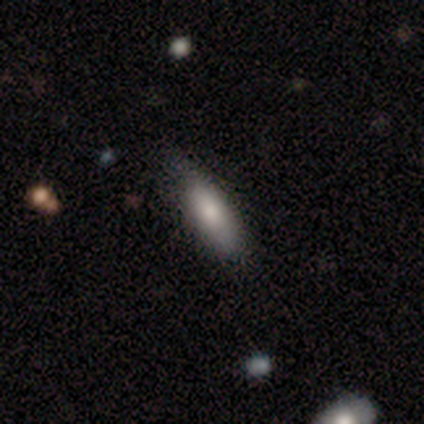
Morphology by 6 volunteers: smooth_or_featured: smooth (p=0.67) [alt: featured or disk p=0.17]
how_rounded: in between (p=0.50) [tied with: cigar-shaped p=0.50]
merging: none (p=0.80) [alt: major disturbance p=0.20]